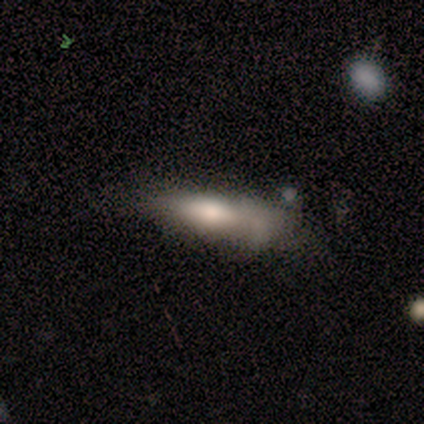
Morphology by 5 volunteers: smooth-or-featured: smooth: 60% | featured or disk: 40% | star or artifact: 0%
  how-rounded: in between: 67% | cigar-shaped: 33% | round: 0%
  merging: minor disturbance: 60% | major disturbance: 20% | merger: 20% | none: 0%